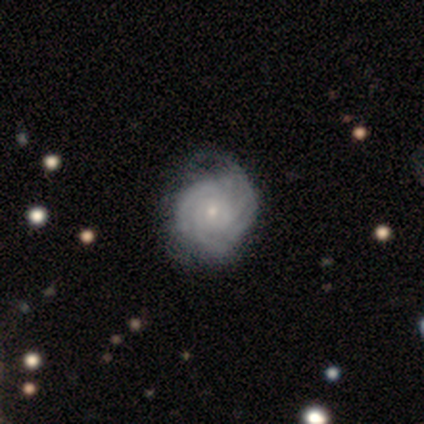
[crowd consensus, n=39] Smooth or featured? 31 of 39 (79%) said featured or disk. Edge-on disk? 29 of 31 (94%) said no. Bar? 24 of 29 (83%) said no. Spiral arms? 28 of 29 (97%) said yes. Spiral winding? 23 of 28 (82%) said tight. Spiral arm count? 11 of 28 (39%) said 3. Bulge size? 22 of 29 (76%) said small. Merging? 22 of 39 (56%) said none.